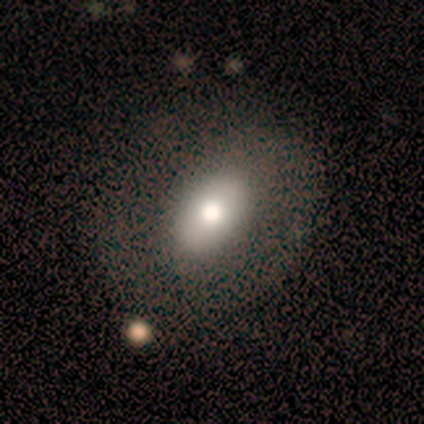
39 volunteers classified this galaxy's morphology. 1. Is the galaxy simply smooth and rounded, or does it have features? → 56% smooth, 31% featured or disk, 13% star or artifact.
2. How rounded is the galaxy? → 95% in between, 5% round, 0% cigar-shaped.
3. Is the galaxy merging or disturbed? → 71% none, 24% minor disturbance, 6% major disturbance, 0% merger.